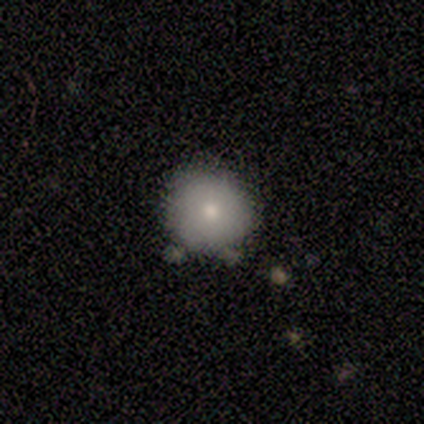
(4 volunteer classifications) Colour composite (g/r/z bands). It shows a smooth galaxy with no disk features (100%) that is round (75%). Merging: none (50%).